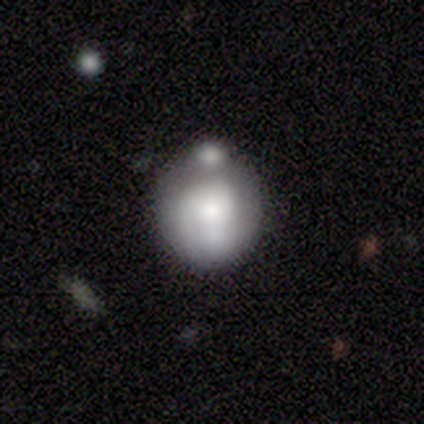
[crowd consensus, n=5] Morphology: type=smooth (60%); roundness=round (67%); merging=none (80%).